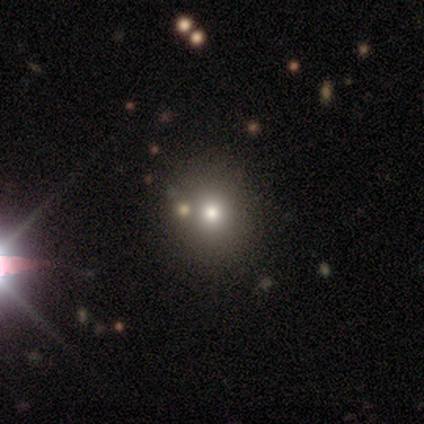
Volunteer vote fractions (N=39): Smooth or featured? smooth (62%)
How rounded? round (88%)
Merging? none (59%)